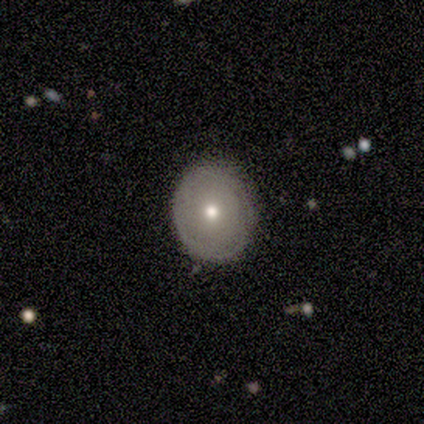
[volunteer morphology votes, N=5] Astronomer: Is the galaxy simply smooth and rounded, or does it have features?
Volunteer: smooth — 80%.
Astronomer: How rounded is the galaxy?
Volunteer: round — 100%.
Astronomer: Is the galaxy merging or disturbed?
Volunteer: none — 80%.